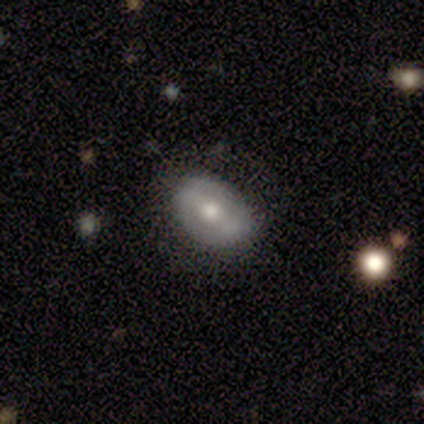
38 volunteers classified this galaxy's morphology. A smooth galaxy with no disk features (47%) that is in between round and cigar-shaped (83%). Merging: none (74%).